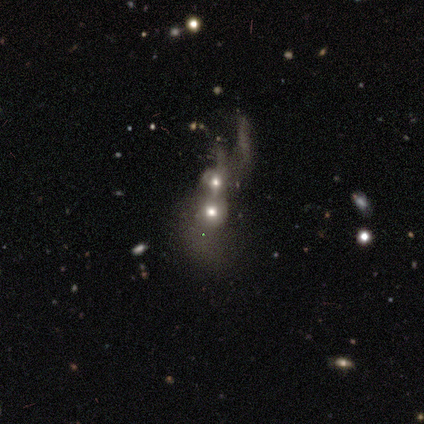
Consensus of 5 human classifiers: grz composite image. It shows a featured or disk galaxy (80%) with no bar (100%), no spiral arms (100%) and a small central bulge (50%). Merging: merger (60%).